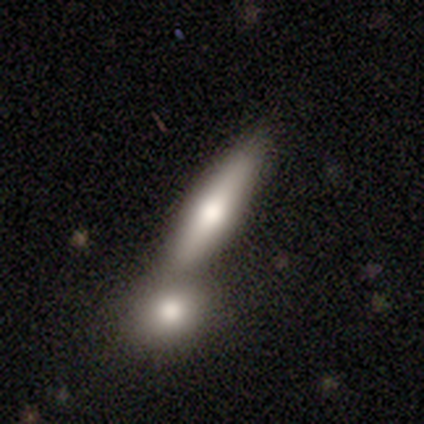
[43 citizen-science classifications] A smooth galaxy with no disk features (65%) that is cigar-shaped (89%).

Vote fractions:
- Smooth or featured? smooth: 65% / featured or disk: 33% / star or artifact: 2%
- How rounded? cigar-shaped: 89% / in between: 7% / round: 4%
- Merging? merger: 50% / none: 45% / minor disturbance: 5% / major disturbance: 0%